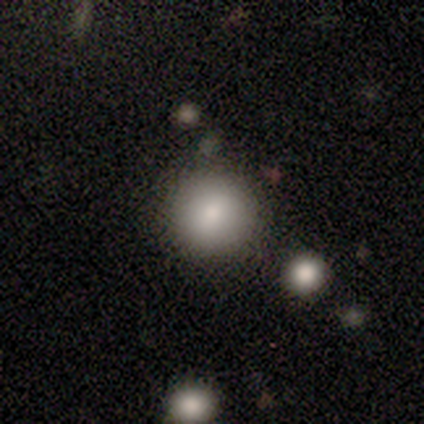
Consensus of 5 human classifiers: Smooth or featured?
  - smooth: 60% *
  - star or artifact: 40%
  - featured or disk: 0%
How rounded?
  - round: 100% *
  - in between: 0%
  - cigar-shaped: 0%
Merging?
  - none: 100% *
  - minor disturbance: 0%
  - major disturbance: 0%
  - merger: 0%